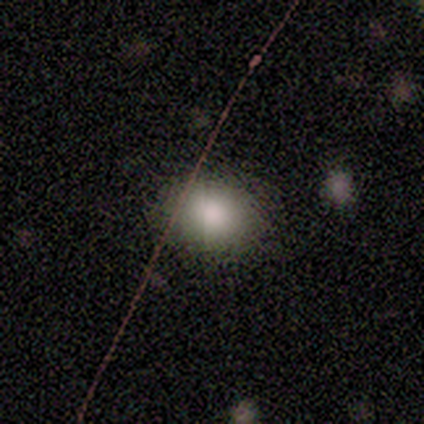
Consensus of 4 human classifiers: Smooth or featured? smooth (75%)
How rounded? round (67%)
Merging? none (75%)